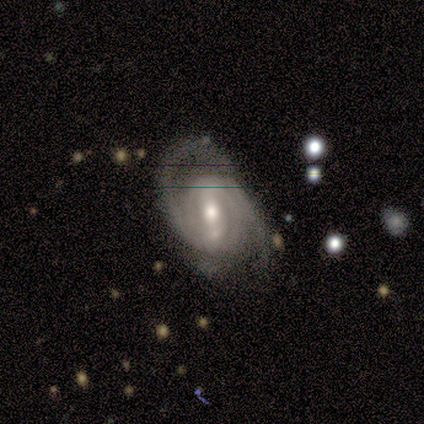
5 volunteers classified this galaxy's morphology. smooth-or-featured: featured or disk: 100% | smooth: 0% | star or artifact: 0%
  disk-edge-on: no: 100% | yes: 0%
    bar: weak: 40% (tied) | no: 40% (tied) | strong: 20%
    has-spiral-arms: yes: 100% | no: 0%
      spiral-winding: tight: 60% | medium: 20% | loose: 20%
      spiral-arm-count: 2: 60% | 3: 40% | 1: 0% | 4: 0% | more than 4: 0% | can't tell: 0%
    bulge-size: moderate: 80% | small: 20% | dominant: 0% | large: 0% | none: 0%
  merging: none: 80% | minor disturbance: 20% | major disturbance: 0% | merger: 0%